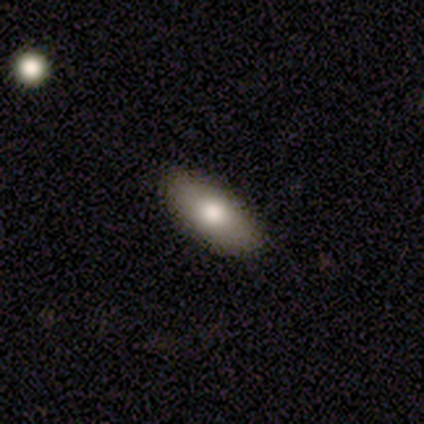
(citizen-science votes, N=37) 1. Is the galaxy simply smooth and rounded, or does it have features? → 73% smooth, 24% featured or disk, 3% star or artifact.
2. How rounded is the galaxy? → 96% in between, 4% cigar-shaped, 0% round.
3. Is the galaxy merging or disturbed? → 64% none, 6% minor disturbance, 3% merger, 0% major disturbance.